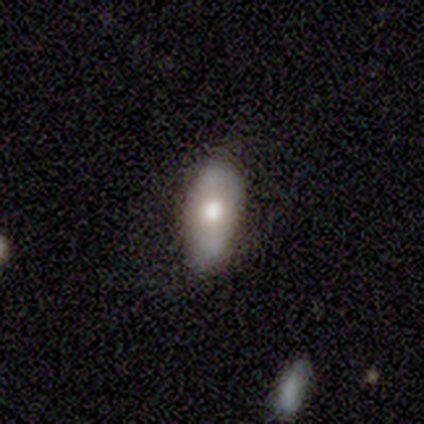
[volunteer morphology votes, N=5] smooth 60%, featured or disk 40%, star or artifact 0%. Down the decision tree: how rounded — in between (100%); merging — none (80%).